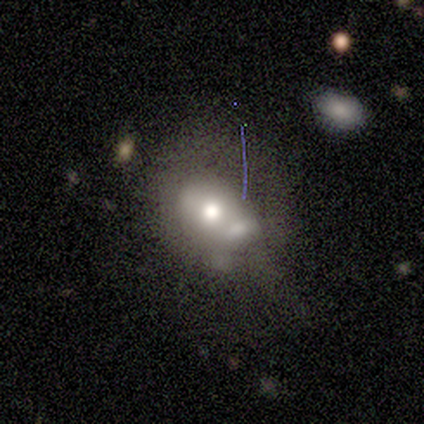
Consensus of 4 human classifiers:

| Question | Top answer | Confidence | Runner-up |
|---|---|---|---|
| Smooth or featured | smooth | 75% | featured or disk (25%) |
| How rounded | in between | 100% | — |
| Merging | major disturbance | 50% | none (25%) |